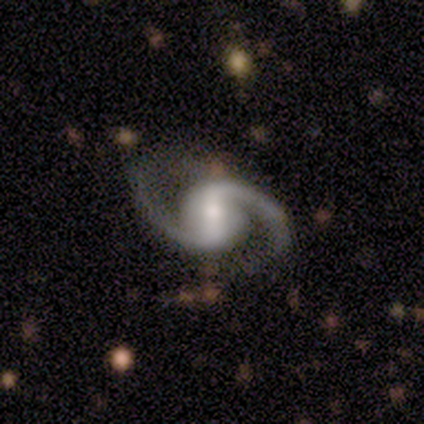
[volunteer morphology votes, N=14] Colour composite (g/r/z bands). It shows a featured or disk galaxy (93%) with a weak bar (69%), 2 (100%) loose (54%) spiral arms (100%) and a moderate central bulge (54%). Merging: none (77%).